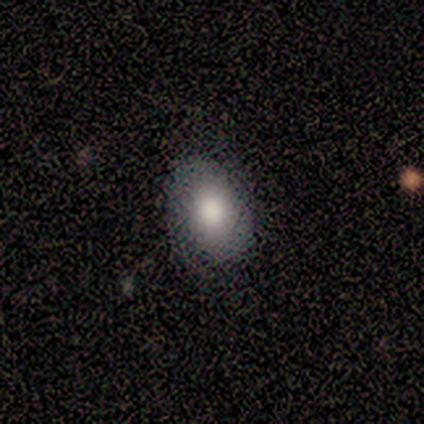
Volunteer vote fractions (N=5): Volunteers were most divided on "smooth or featured": smooth: 60%, featured or disk: 20%, star or artifact: 20%. More confident: how rounded — in between (100%); merging — none (100%).